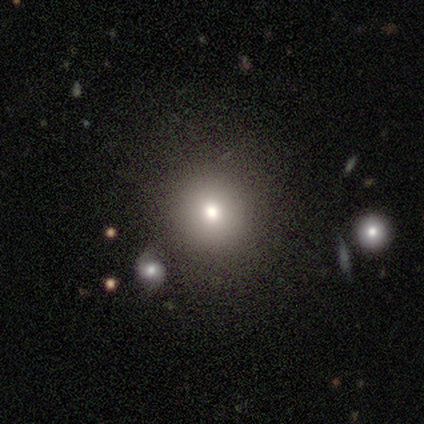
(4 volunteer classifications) smooth_or_featured: smooth (p=1.00)
how_rounded: round (p=0.75) [alt: in between p=0.25]
merging: none (p=0.75) [alt: minor disturbance p=0.25]